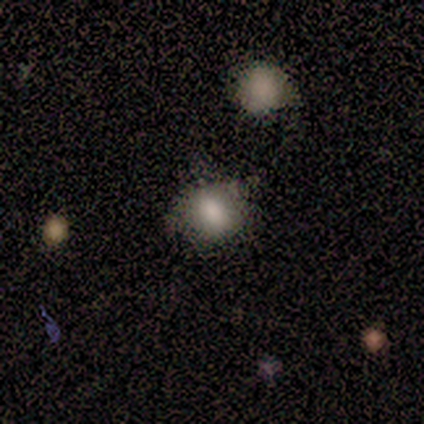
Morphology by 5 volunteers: smooth_or_featured: smooth (p=0.80) [alt: star or artifact p=0.20]
how_rounded: round (p=0.75) [alt: in between p=0.25]
merging: minor disturbance (p=0.50) [alt: none p=0.25]